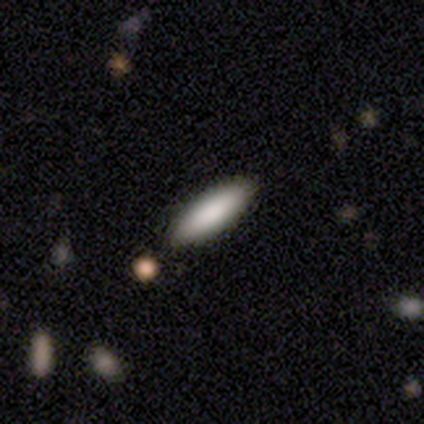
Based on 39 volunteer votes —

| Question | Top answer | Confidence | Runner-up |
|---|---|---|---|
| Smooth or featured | smooth | 90% | featured or disk (8%) |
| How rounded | in between | 66% | cigar-shaped (34%) |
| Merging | none | 71% | minor disturbance (3%) |